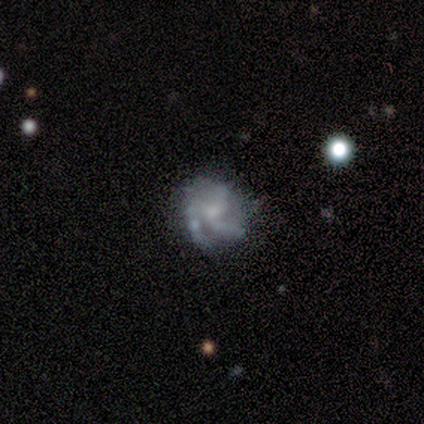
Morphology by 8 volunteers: smooth-or-featured: featured or disk: 62% | smooth: 38% | star or artifact: 0%
  disk-edge-on: no: 100% | yes: 0%
    bar: no: 80% | weak: 20% | strong: 0%
    has-spiral-arms: yes: 80% | no: 20%
      spiral-winding: tight: 100% | medium: 0% | loose: 0%
      spiral-arm-count: 2: 25% (tied) | 3: 25% (tied) | 4: 25% (tied) | can't tell: 25% (tied) | 1: 0% | more than 4: 0%
    bulge-size: small: 60% | none: 40% | dominant: 0% | large: 0% | moderate: 0%
  merging: none: 62% | merger: 25% | minor disturbance: 12% | major disturbance: 0%